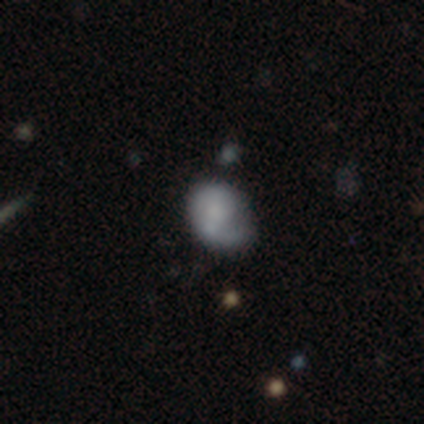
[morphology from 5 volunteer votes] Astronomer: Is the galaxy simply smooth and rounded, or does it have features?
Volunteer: smooth — 60% (runner-up: featured or disk, 40%).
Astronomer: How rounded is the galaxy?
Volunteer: round — 67%.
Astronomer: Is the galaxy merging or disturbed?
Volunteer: none — 60%.